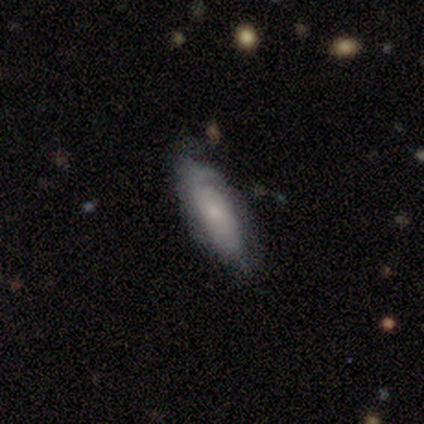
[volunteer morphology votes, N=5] type=featured or disk (100%); edge-on=no (60%); bar=no (100%); spiral arms=yes (100%); winding=medium (67%); arm count=can't tell (67%); bulge=moderate (67%); merging=none (60%).